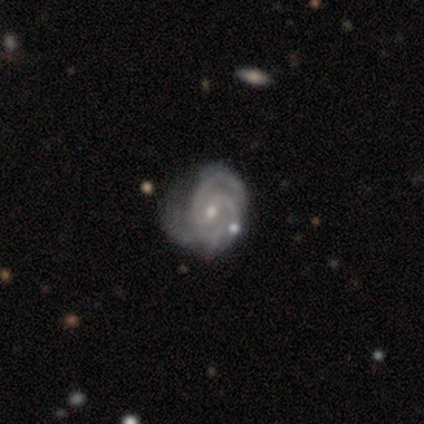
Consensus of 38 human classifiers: Q: Smooth or featured?
A: featured or disk (89%); runner-up: smooth (8%)
Q: Edge-on disk?
A: no (100%)
Q: Bar?
A: no (53%); runner-up: weak (35%)
Q: Spiral arms?
A: yes (97%); runner-up: no (3%)
Q: Spiral winding?
A: tight (64%); runner-up: medium (30%)
Q: Spiral arm count?
A: 3 (42%); runner-up: 2 (21%)
Q: Bulge size?
A: small (76%); runner-up: moderate (24%)
Q: Merging?
A: none (57%); runner-up: minor disturbance (32%)